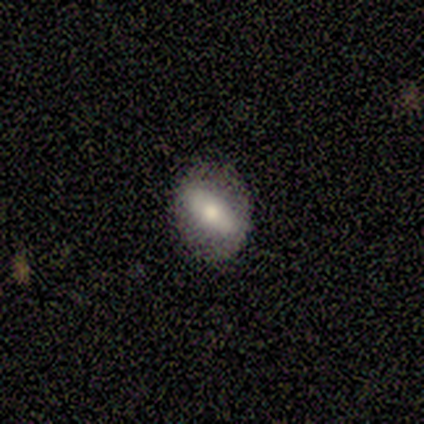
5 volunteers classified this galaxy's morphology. Overall: smooth (80%). How rounded: in between (100%). Merging: none (100%).